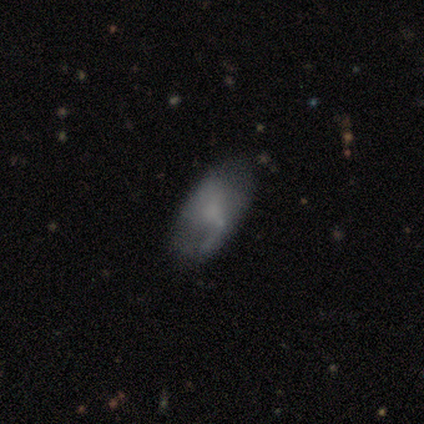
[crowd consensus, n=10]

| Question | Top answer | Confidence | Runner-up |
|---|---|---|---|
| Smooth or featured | featured or disk | 60% | smooth (40%) |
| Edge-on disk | no | 100% | — |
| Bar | no | 67% | weak (33%) |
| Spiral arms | no | 67% | yes (33%) |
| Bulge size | small | 50% | none (33%) |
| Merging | none | 60% | minor disturbance (20%) |